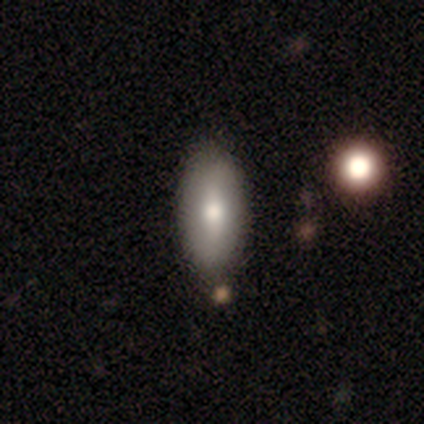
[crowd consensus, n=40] Smooth or featured?
  - smooth: 68% *
  - featured or disk: 22%
  - star or artifact: 10%
How rounded?
  - in between: 96% *
  - cigar-shaped: 4%
  - round: 0%
Merging?
  - none: 81% *
  - minor disturbance: 3%
  - major disturbance: 0%
  - merger: 0%